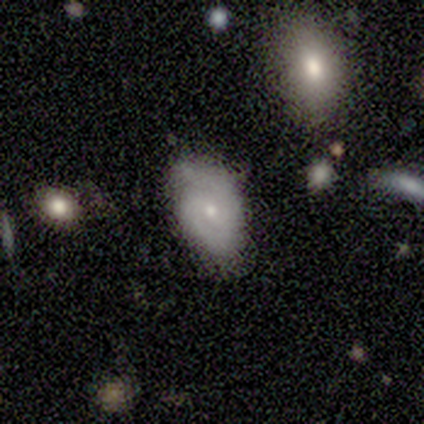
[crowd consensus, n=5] Smooth or featured? featured or disk (80%)
Edge-on disk? no (100%)
Bar? no (75%)
Spiral arms? yes (75%)
Spiral winding? tight (67%)
Spiral arm count? can't tell (100%)
Bulge size? small (75%)
Merging? none (50%)